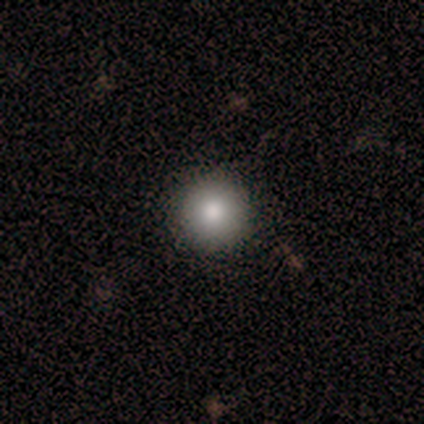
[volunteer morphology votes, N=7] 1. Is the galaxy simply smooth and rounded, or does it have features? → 100% smooth, 0% featured or disk, 0% star or artifact.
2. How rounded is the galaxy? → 100% round, 0% in between, 0% cigar-shaped.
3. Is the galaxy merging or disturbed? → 86% none, 14% minor disturbance, 0% major disturbance, 0% merger.